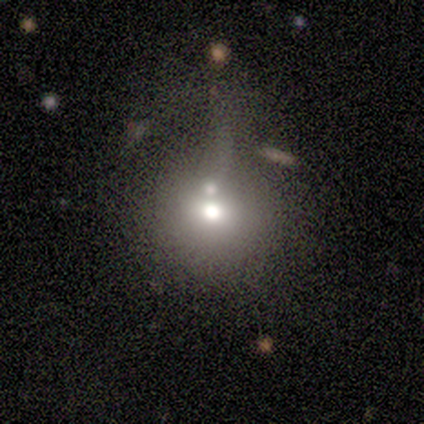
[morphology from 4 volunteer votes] A smooth galaxy with no disk features (75%) that is round (100%). Merging: none (67%).